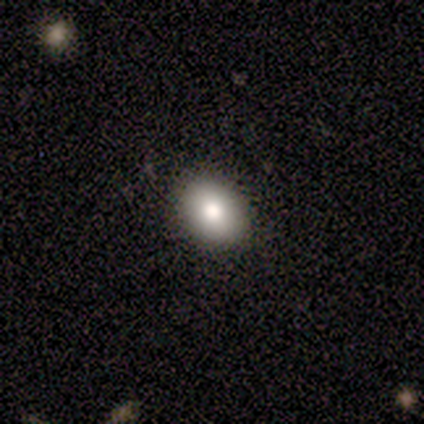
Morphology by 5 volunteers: Overall: smooth (100%). How rounded: in between (80%). Merging: none (100%).